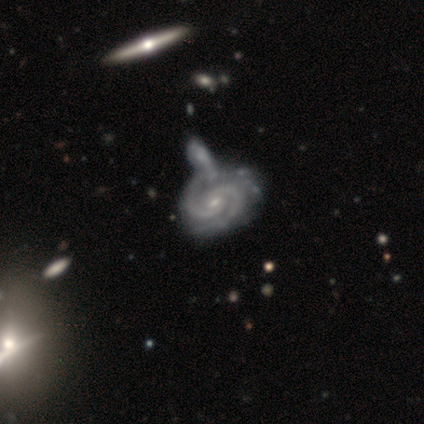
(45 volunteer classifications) smooth_or_featured: featured or disk (p=0.96) [alt: star or artifact p=0.04]
disk_edge_on: no (p=1.00)
bar: no (p=0.72) [alt: weak p=0.28]
has_spiral_arms: yes (p=1.00)
spiral_winding: tight (p=0.67) [alt: medium p=0.30]
spiral_arm_count: 2 (p=0.91) [alt: 3 p=0.07]
bulge_size: small (p=0.72) [alt: moderate p=0.26]
merging: merger (p=0.53) [alt: none p=0.26]